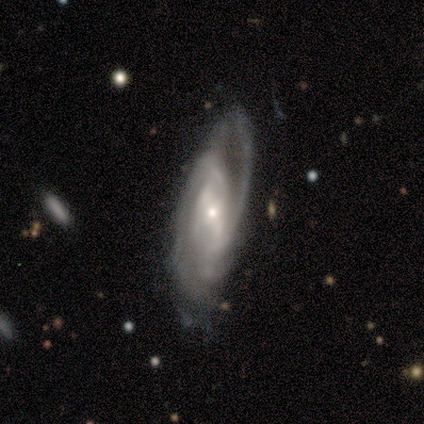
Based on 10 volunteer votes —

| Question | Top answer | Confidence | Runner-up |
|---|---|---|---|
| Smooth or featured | featured or disk | 90% | smooth (10%) |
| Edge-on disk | no | 100% | — |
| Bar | weak | 67% | no (22%) |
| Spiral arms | yes | 100% | — |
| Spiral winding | medium | 44% | tight (33%) |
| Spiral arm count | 2 | 44% | can't tell (33%) |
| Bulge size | small | 78% | moderate (22%) |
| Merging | none | 70% | minor disturbance (20%) |